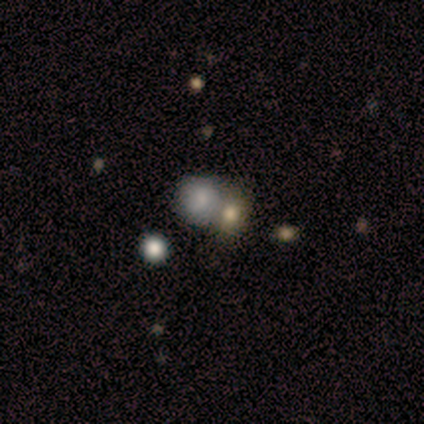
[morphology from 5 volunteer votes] A smooth galaxy with no disk features (80%) that is round (100%). Merging: merger (75%).